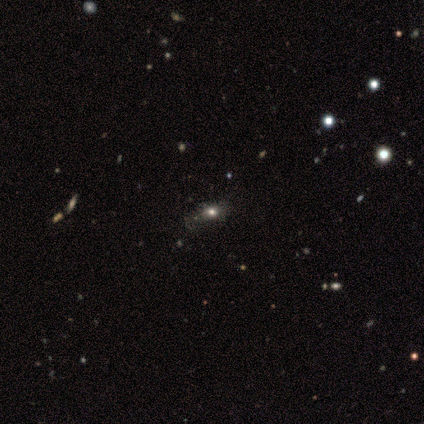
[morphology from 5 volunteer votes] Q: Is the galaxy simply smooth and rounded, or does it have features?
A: star or artifact — 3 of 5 (60%).